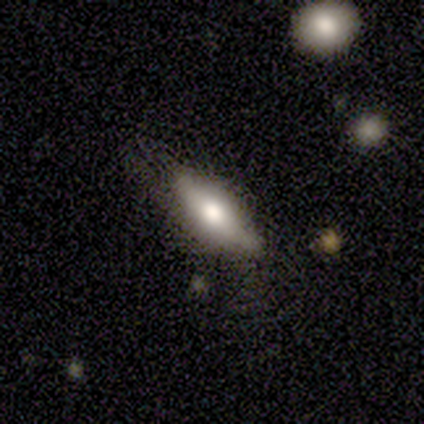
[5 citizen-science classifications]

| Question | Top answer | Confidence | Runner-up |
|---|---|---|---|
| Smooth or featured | smooth | 60% | featured or disk (40%) |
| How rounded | in between | 67% | cigar-shaped (33%) |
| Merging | none | 60% | minor disturbance (20%) |